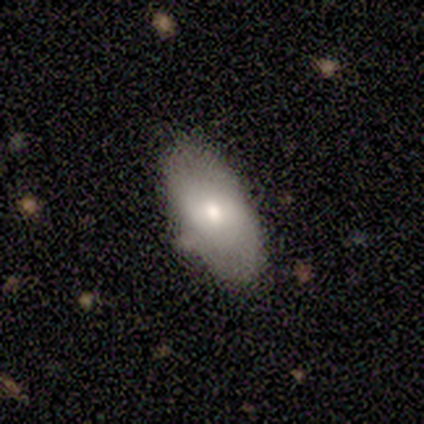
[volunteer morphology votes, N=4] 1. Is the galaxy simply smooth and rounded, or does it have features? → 100% smooth, 0% featured or disk, 0% star or artifact.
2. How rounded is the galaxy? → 100% in between, 0% round, 0% cigar-shaped.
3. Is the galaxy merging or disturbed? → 75% none, 25% minor disturbance, 0% major disturbance, 0% merger.